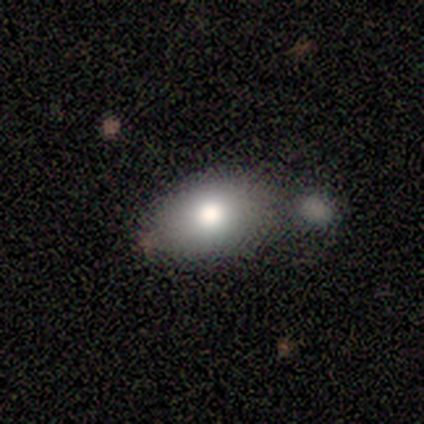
A smooth galaxy with no disk features (69%) that is in between round and cigar-shaped (100%).

Vote fractions:
- Smooth or featured? smooth: 69% / featured or disk: 15% / star or artifact: 15%
- How rounded? in between: 100% / round: 0% / cigar-shaped: 0%
- Merging? none: 36% (tied) / minor disturbance: 36% (tied) / merger: 27% / major disturbance: 0%